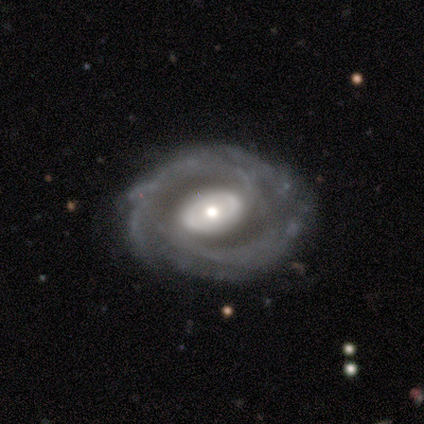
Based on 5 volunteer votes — Q: Smooth or featured?
A: featured or disk (80%); runner-up: smooth (20%)
Q: Edge-on disk?
A: no (100%)
Q: Bar?
A: no (50%); runner-up: strong (25%)
Q: Spiral arms?
A: yes (100%)
Q: Spiral winding?
A: tight (75%); runner-up: medium (25%)
Q: Spiral arm count?
A: 2 (75%); runner-up: can't tell (25%)
Q: Bulge size?
A: small (75%); runner-up: large (25%)
Q: Merging?
A: none (100%)